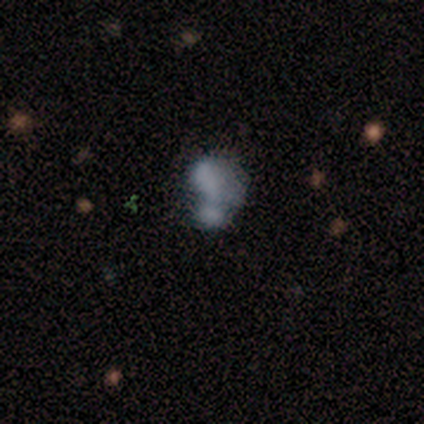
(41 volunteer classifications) This appears to be a smooth galaxy with no disk features (59%) that is in between round and cigar-shaped (92%). Merging: merger (42%).